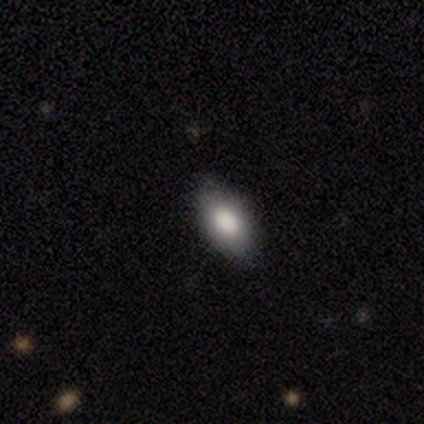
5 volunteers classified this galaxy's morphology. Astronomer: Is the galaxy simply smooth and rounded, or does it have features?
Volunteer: smooth — 100%.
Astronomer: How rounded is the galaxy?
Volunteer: in between — 60% (runner-up: round, 40%).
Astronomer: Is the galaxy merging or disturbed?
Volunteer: none — 80%.